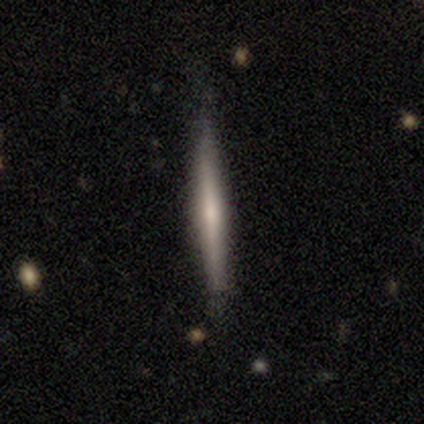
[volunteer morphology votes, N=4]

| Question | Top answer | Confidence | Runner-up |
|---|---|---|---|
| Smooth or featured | smooth | 50% | tied: featured or disk (50%) |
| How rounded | cigar-shaped | 100% | — |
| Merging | merger | 50% | none (25%) |